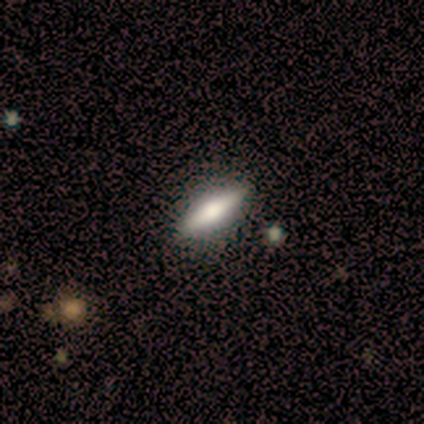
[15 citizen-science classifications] Overall: smooth (60%; featured or disk 33%). How rounded: in between (56%; cigar-shaped 44%). Merging: none (93%).